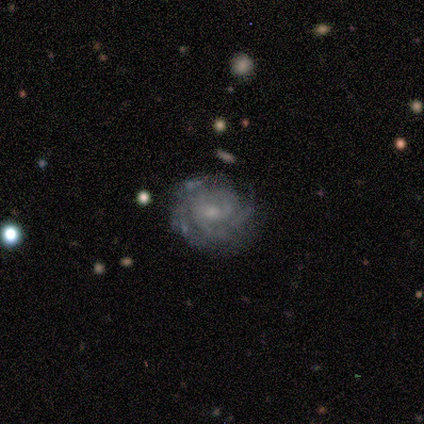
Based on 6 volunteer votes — Smooth or featured?
  - featured or disk: 100% *
  - smooth: 0%
  - star or artifact: 0%
Edge-on disk?
  - no: 100% *
  - yes: 0%
Bar?
  - no: 83% *
  - weak: 17%
  - strong: 0%
Spiral arms?
  - yes: 100% *
  - no: 0%
Spiral winding?
  - tight: 83% *
  - medium: 17%
  - loose: 0%
Spiral arm count?
  - can't tell: 67% *
  - 1: 17%
  - 4: 17%
  - 2: 0%
  - 3: 0%
  - more than 4: 0%
Bulge size?
  - small: 67% *
  - moderate: 33%
  - dominant: 0%
  - large: 0%
  - none: 0%
Merging?
  - none: 83% *
  - minor disturbance: 17%
  - major disturbance: 0%
  - merger: 0%